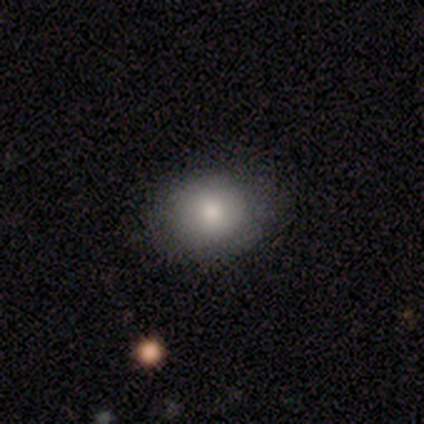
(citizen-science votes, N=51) smooth_or_featured: smooth (p=0.84) [alt: star or artifact p=0.10]
how_rounded: round (p=0.58) [alt: in between p=0.42]
merging: none (p=0.83) [alt: minor disturbance p=0.13]